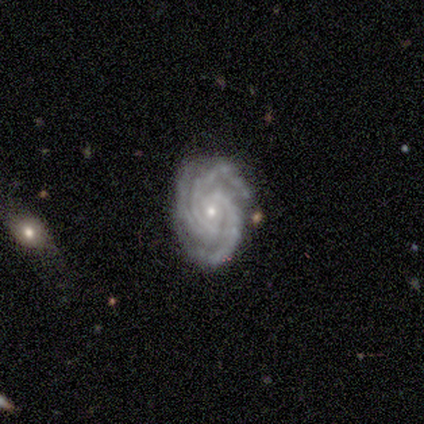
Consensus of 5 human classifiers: This is clearly a featured or disk galaxy (100%). It is clearly not viewed edge-on (100%). Bar: likely no (60%). Spiral arm pattern: clearly yes (100%). Spiral arm count: clearly 3 (80%). Spiral winding: clearly tight (80%). Central bulge: likely small (60%). Merging: clearly none (80%).